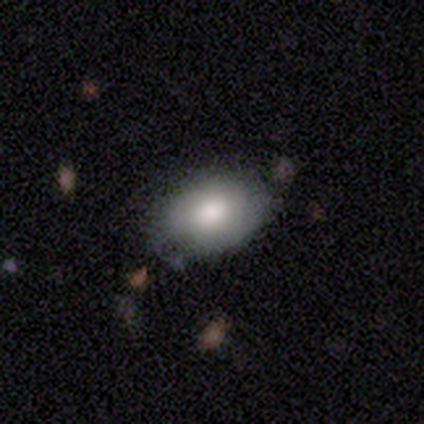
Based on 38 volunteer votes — smooth 79%, featured or disk 18%, star or artifact 3%. Down the decision tree: how rounded — in between (97%); merging — none (59%).